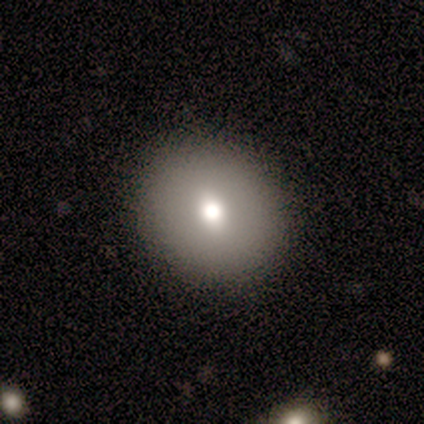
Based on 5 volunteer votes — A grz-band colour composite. It shows a smooth galaxy with no disk features (80%) that is round (50%, tied with in between). Merging: none (75%).